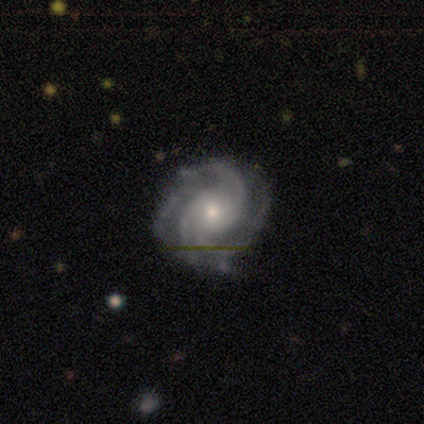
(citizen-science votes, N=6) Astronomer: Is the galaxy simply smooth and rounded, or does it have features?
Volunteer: featured or disk — 100%.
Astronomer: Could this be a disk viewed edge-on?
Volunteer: no — 100%.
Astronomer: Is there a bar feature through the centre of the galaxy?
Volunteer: no — 67%.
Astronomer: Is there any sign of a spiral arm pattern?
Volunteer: yes — 100%.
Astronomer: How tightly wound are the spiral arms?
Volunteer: medium — 83%.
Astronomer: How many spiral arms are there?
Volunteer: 3 — 33%, tied with 4 at 33%.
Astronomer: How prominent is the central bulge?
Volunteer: moderate — 50%, tied with small at 50%.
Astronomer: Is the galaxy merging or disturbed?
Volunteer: none — 100%.